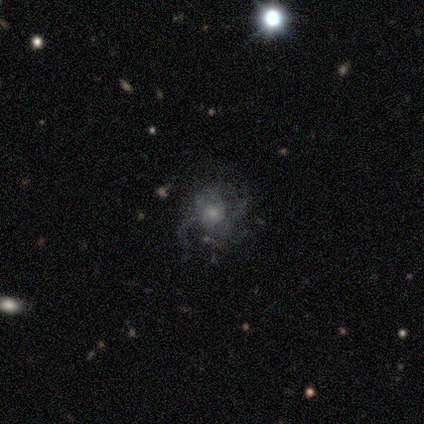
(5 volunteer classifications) Smooth or featured?
  - featured or disk: 60% *
  - smooth: 20%
  - star or artifact: 20%
Edge-on disk?
  - no: 100% *
  - yes: 0%
Bar?
  - weak: 67% *
  - no: 33%
  - strong: 0%
Spiral arms?
  - yes: 100% *
  - no: 0%
Spiral winding?
  - loose: 67% *
  - tight: 33%
  - medium: 0%
Spiral arm count?
  - 1: 33% * (tied)
  - 3: 33% * (tied)
  - can't tell: 33% * (tied)
  - 2: 0%
  - 4: 0%
  - more than 4: 0%
Bulge size?
  - large: 33% * (tied)
  - moderate: 33% * (tied)
  - small: 33% * (tied)
  - dominant: 0%
  - none: 0%
Merging?
  - none: 50% * (tied)
  - minor disturbance: 50% * (tied)
  - major disturbance: 0%
  - merger: 0%